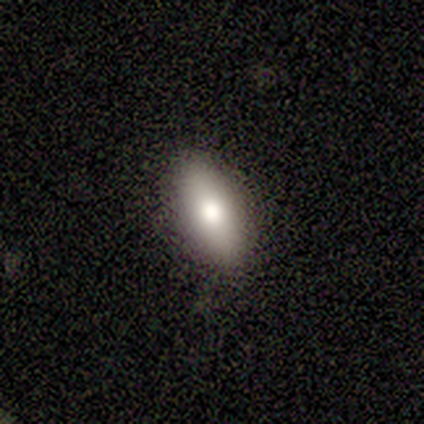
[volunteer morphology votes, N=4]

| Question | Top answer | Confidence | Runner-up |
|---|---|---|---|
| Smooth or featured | smooth | 100% | — |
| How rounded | in between | 100% | — |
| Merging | none | 75% | minor disturbance (25%) |